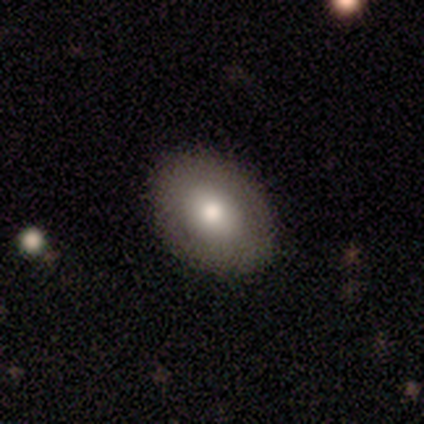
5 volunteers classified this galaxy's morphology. Smooth or featured? 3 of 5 (60%) said smooth. How rounded? 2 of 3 (67%) said round. Merging? 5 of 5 (100%) said none.